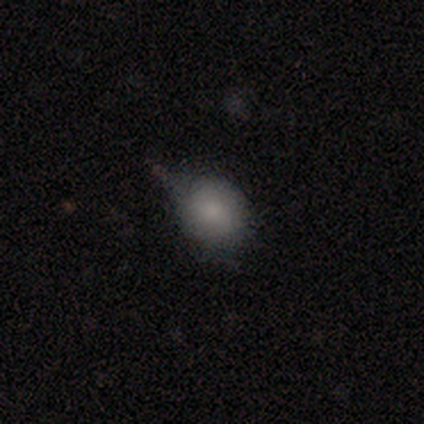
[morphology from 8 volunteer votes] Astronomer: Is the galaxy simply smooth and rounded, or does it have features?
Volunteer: smooth — 100%.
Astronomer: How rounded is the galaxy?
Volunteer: round — 75%.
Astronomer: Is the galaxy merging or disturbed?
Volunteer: minor disturbance — 50% (runner-up: none, 38%).